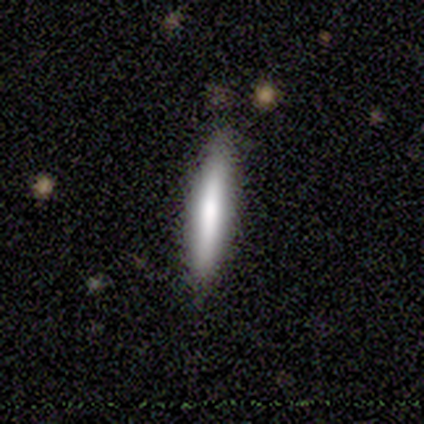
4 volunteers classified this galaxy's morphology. This is possibly a smooth galaxy (50%, tied with featured or disk). How rounded: clearly cigar-shaped (100%). Merging: clearly none (100%).